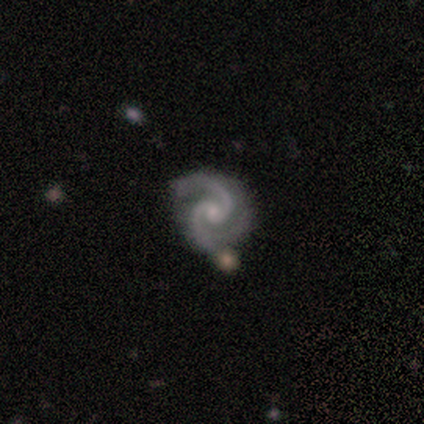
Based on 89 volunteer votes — Q: Smooth or featured?
A: featured or disk (97%); runner-up: star or artifact (3%)
Q: Edge-on disk?
A: no (100%)
Q: Bar?
A: no (74%); runner-up: strong (13%)
Q: Spiral arms?
A: yes (100%)
Q: Spiral winding?
A: medium (65%); runner-up: tight (35%)
Q: Spiral arm count?
A: 2 (95%); runner-up: 3 (5%)
Q: Bulge size?
A: small (71%); runner-up: moderate (21%)
Q: Merging?
A: none (84%); runner-up: minor disturbance (16%)